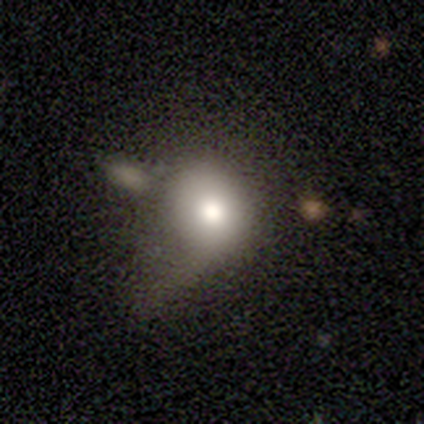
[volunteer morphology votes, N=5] Smooth or featured: star or artifact — 60% (smooth — 40%)